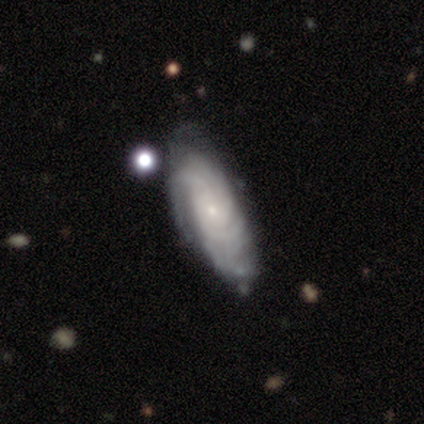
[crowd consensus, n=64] Smooth or featured? featured or disk (80%)
Edge-on disk? no (88%)
Bar? no (96%)
Spiral arms? yes (96%)
Spiral winding? tight (77%)
Spiral arm count? can't tell (51%)
Bulge size? small (84%)
Merging? none (67%)